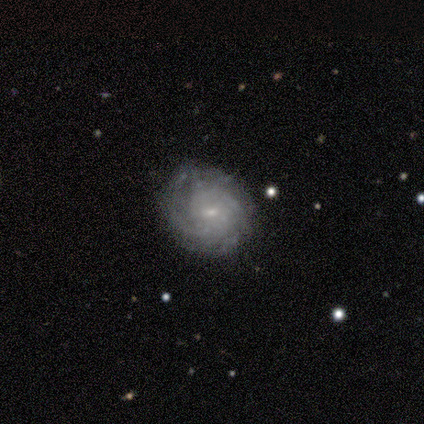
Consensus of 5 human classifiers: This is clearly a featured or disk galaxy (100%). It is clearly not viewed edge-on (100%). Bar: likely no (60%). Spiral arm pattern: clearly yes (100%). Spiral arm count: marginally 3 (40%, tied with can't tell). Spiral winding: clearly tight (80%). Central bulge: clearly small (80%). Merging: clearly none (80%).